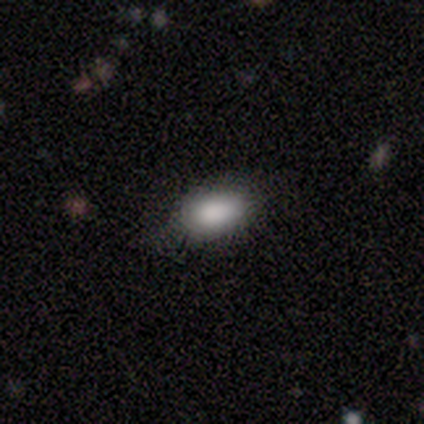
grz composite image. It shows a smooth galaxy with no disk features (100%) that is in between round and cigar-shaped (100%). Merging: none (75%).